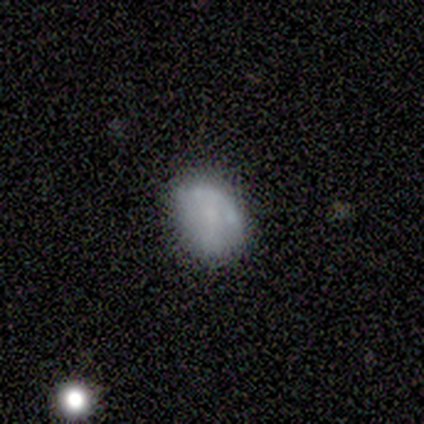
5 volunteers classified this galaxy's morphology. A smooth galaxy with no disk features (80%) that is in between round and cigar-shaped (75%).

Vote fractions:
- Smooth or featured? smooth: 80% / featured or disk: 20% / star or artifact: 0%
- How rounded? in between: 75% / round: 25% / cigar-shaped: 0%
- Merging? none: 100% / minor disturbance: 0% / major disturbance: 0% / merger: 0%